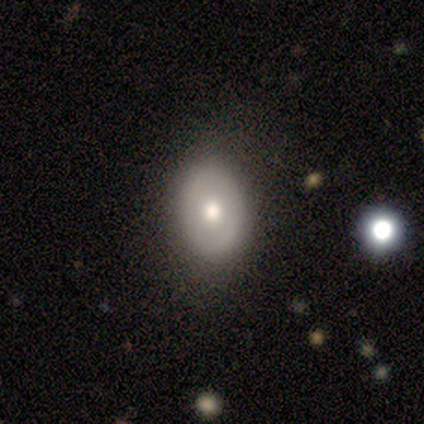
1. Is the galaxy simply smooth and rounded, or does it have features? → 100% smooth, 0% featured or disk, 0% star or artifact.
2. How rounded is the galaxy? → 67% in between, 33% round, 0% cigar-shaped.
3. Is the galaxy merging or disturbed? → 67% none, 33% minor disturbance, 0% major disturbance, 0% merger.